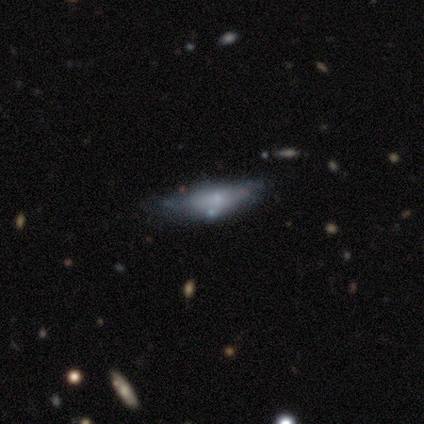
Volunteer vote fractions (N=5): Volunteers were most divided on "bulge size" (2-way tie): small: 50%, none: 50%, dominant: 0%, large: 0%, moderate: 0%. More confident: bar — no (100%); spiral arms — no (100%); edge-on disk — no (67%); smooth or featured — featured or disk (60%); merging — none (50%).